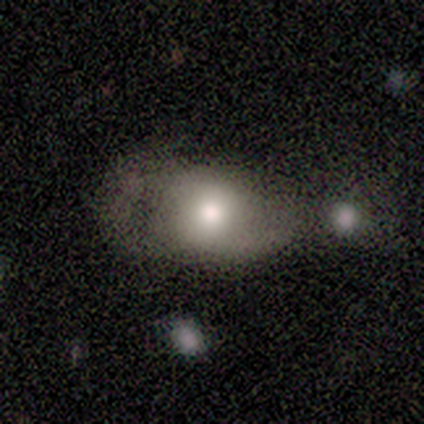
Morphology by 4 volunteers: This is possibly a smooth galaxy (50%, tied with featured or disk). How rounded: clearly in between (100%). Merging: possibly major disturbance (50%).